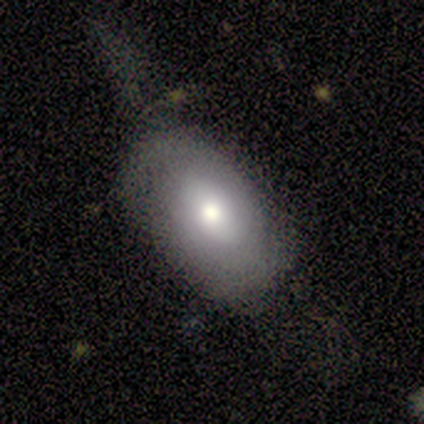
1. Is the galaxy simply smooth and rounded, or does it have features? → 60% smooth, 40% star or artifact, 0% featured or disk.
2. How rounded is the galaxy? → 67% in between, 33% round, 0% cigar-shaped.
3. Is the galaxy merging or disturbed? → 67% none, 33% major disturbance, 0% minor disturbance, 0% merger.